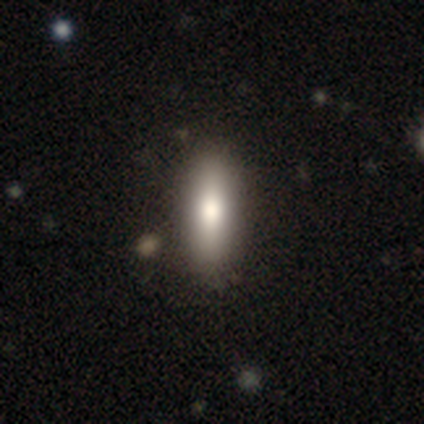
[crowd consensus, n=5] Volunteers were most divided on "how rounded": cigar-shaped: 75%, in between: 25%, round: 0%. More confident: smooth or featured — smooth (80%); merging — none (75%).